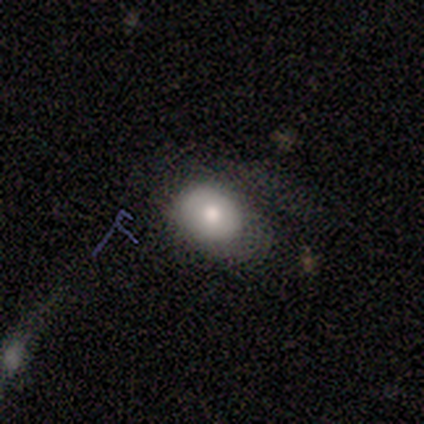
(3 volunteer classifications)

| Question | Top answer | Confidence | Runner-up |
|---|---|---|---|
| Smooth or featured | smooth | 33% | tied: featured or disk (33%), star or artifact (33%) |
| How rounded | round | 100% | — |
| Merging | minor disturbance | 50% | tied: major disturbance (50%) |